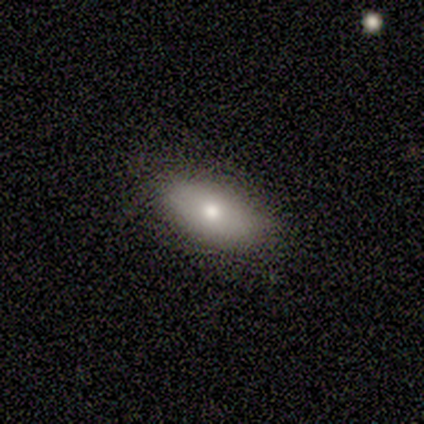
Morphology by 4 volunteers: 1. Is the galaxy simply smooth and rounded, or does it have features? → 75% smooth, 25% featured or disk, 0% star or artifact.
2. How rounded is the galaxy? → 67% in between, 33% cigar-shaped, 0% round.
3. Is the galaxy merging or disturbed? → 75% none, 25% minor disturbance, 0% major disturbance, 0% merger.